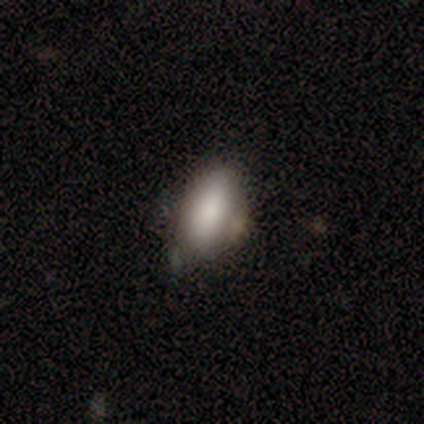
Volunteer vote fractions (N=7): This is clearly a smooth galaxy (100%). How rounded: likely in between (71%). Merging: likely none (71%).